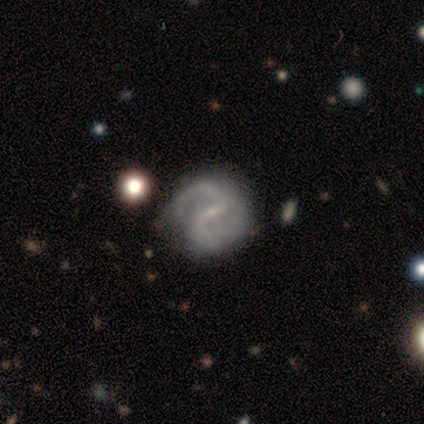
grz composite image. It shows a featured or disk galaxy (100%) with a strong bar (40%, tied with weak), 2 (100%) medium (80%) spiral arms (100%) and a small central bulge (100%). Merging: none (80%).